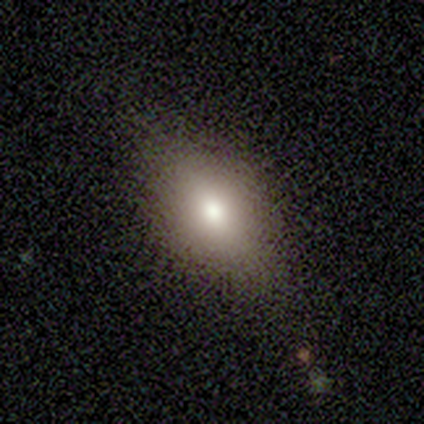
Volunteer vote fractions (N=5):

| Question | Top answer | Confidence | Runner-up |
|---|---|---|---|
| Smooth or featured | smooth | 80% | featured or disk (20%) |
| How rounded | in between | 100% | — |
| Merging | none | 100% | — |